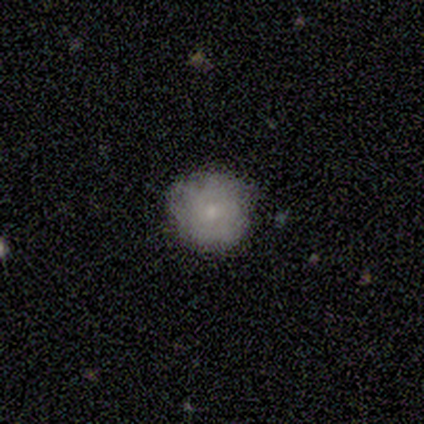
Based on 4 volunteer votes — Smooth or featured: smooth — 100%
How rounded: round — 100%
Merging: none — 100%